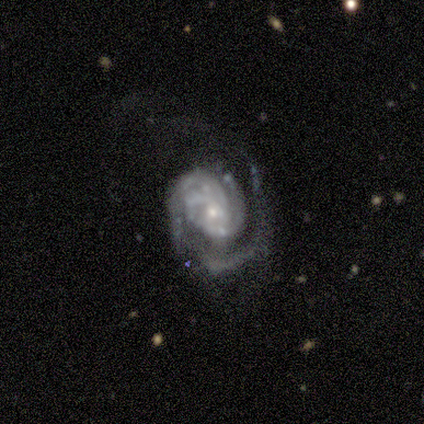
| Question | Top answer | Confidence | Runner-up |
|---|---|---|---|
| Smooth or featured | featured or disk | 100% | — |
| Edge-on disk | no | 100% | — |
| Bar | no | 100% | — |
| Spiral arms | yes | 100% | — |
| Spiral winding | tight | 60% | medium (40%) |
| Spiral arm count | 3 | 40% | 1 (20%) |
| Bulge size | small | 100% | — |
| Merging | none | 60% | major disturbance (20%) |